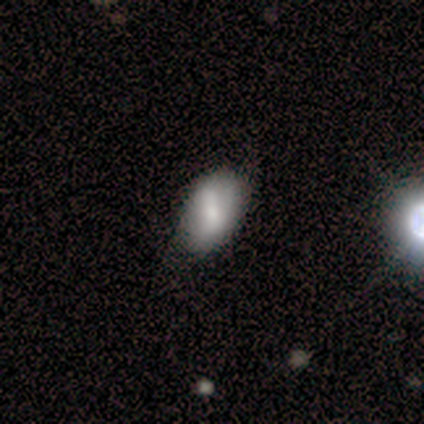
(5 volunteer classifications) smooth_or_featured: smooth (p=0.60) [alt: featured or disk p=0.40]
how_rounded: in between (p=1.00)
merging: none (p=0.60) [alt: minor disturbance p=0.20]